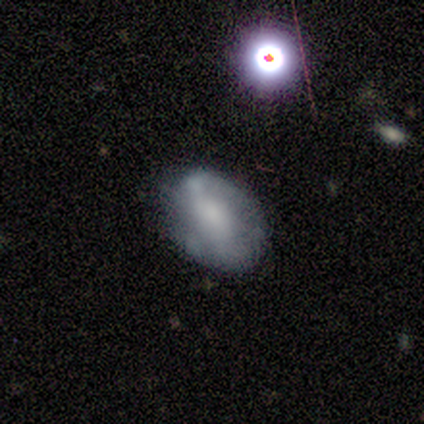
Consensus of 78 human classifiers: A featured or disk galaxy (47%) with no bar (62%), no spiral arms (73%) and a moderate central bulge (43%).

Vote fractions:
- Smooth or featured? featured or disk: 47% / smooth: 35% / star or artifact: 18%
- Edge-on disk? no: 100% / yes: 0%
- Bar? no: 62% / strong: 22% / weak: 16%
- Spiral arms? no: 73% / yes: 27%
- Bulge size? moderate: 43% / large: 19% / none: 19% / small: 16% / dominant: 3%
- Merging? none: 69% / minor disturbance: 25% / major disturbance: 3% / merger: 3%